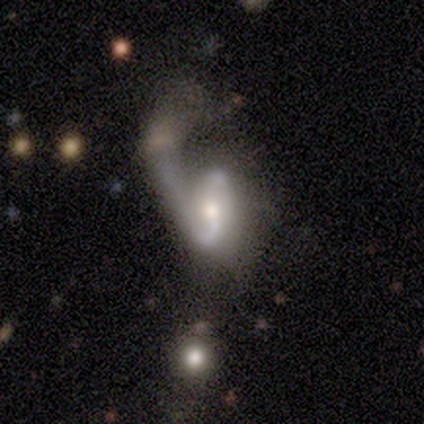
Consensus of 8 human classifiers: Smooth or featured? featured or disk (75%)
Edge-on disk? no (100%)
Bar? no (67%)
Spiral arms? yes (83%)
Spiral winding? medium (60%)
Spiral arm count? 2 (80%)
Bulge size? moderate (50%)
Merging? major disturbance (62%)